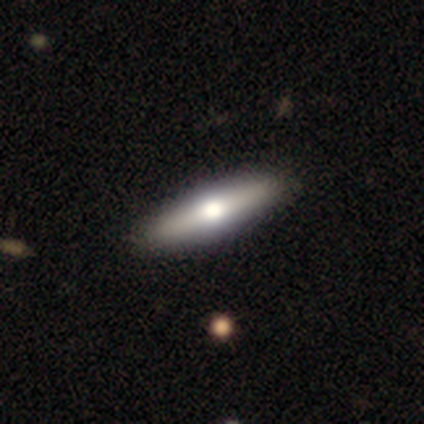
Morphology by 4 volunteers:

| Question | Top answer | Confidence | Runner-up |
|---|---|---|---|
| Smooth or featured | smooth | 75% | featured or disk (25%) |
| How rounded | in between | 67% | cigar-shaped (33%) |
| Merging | none | 100% | — |